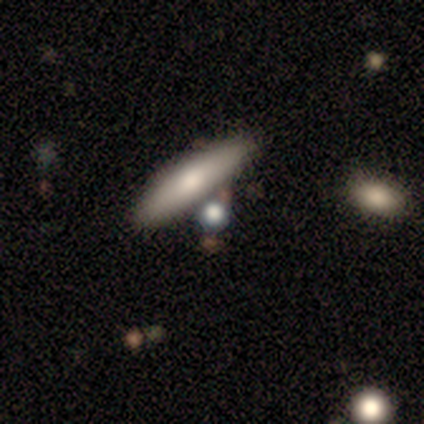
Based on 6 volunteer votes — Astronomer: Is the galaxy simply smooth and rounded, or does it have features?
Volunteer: smooth — 100%.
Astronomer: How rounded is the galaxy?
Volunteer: cigar-shaped — 67%.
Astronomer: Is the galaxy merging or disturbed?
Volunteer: none — 67%.